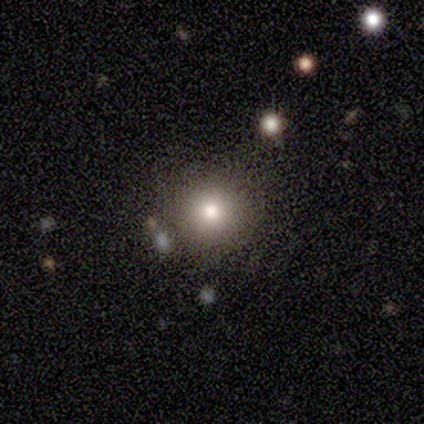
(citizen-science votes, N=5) Volunteers were most divided on "smooth or featured": smooth: 80%, featured or disk: 20%, star or artifact: 0%. More confident: how rounded — round (100%); merging — none (100%).